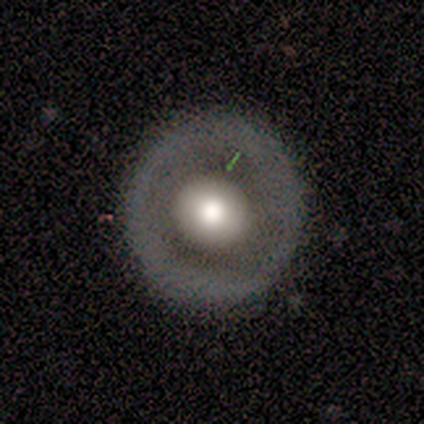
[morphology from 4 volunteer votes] Volunteers were most divided on "smooth or featured" (2-way tie): smooth: 50%, featured or disk: 50%, star or artifact: 0%. More confident: how rounded — round (100%); merging — none (75%).